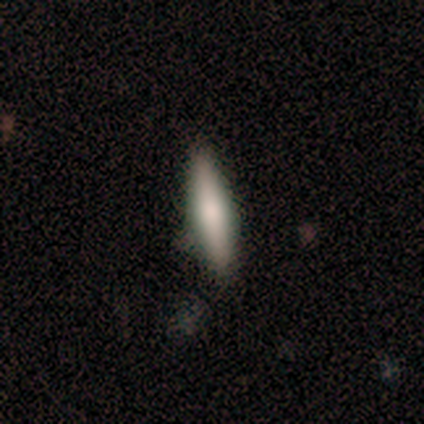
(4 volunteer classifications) This is possibly a smooth galaxy (50%). How rounded: possibly in between (50%, tied with cigar-shaped). Merging: likely minor disturbance (67%).